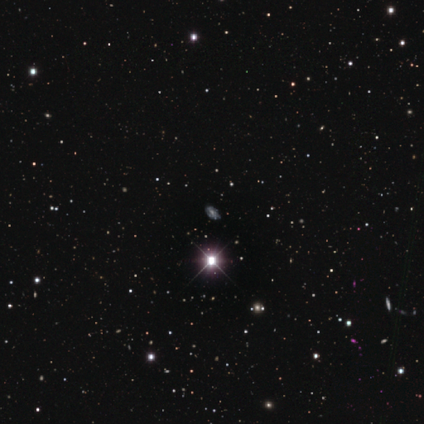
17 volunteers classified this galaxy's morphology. A star or artifact, not a galaxy (71%).